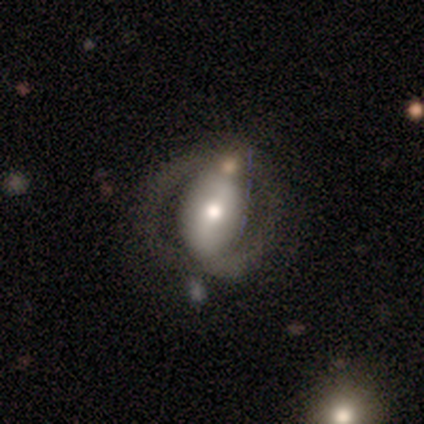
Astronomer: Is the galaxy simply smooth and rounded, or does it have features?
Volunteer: featured or disk — 80%.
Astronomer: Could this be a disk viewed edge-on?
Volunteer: no — 100%.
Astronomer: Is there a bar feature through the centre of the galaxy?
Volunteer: strong — 50%.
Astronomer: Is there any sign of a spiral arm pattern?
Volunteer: yes — 75%.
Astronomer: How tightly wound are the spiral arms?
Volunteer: tight — 67%.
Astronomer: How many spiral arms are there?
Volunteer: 2 — 100%.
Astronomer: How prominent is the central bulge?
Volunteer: moderate — 50%, tied with small at 50%.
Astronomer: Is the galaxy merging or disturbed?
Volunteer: none — 80%.